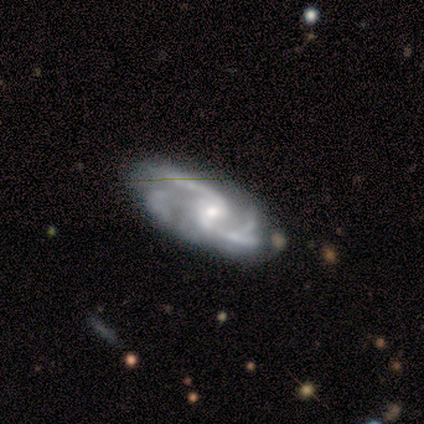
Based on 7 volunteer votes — Smooth or featured? featured or disk (86%)
Edge-on disk? no (100%)
Bar? weak (50%, tied with no)
Spiral arms? yes (100%)
Spiral winding? medium (50%)
Spiral arm count? 2 (50%)
Bulge size? moderate (83%)
Merging? none (43%, tied with minor disturbance)